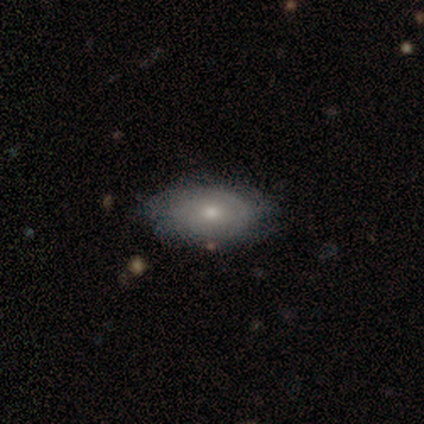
Smooth or featured: smooth — 56% (featured or disk — 44%)
How rounded: in between — 100%
Merging: none — 78% (minor disturbance — 20%)